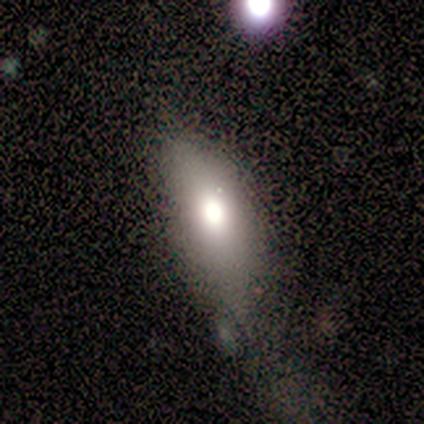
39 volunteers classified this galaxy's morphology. Smooth or featured?
  - smooth: 79% *
  - star or artifact: 13%
  - featured or disk: 8%
How rounded?
  - in between: 87% *
  - cigar-shaped: 13%
  - round: 0%
Merging?
  - minor disturbance: 47% *
  - none: 35%
  - major disturbance: 12%
  - merger: 6%